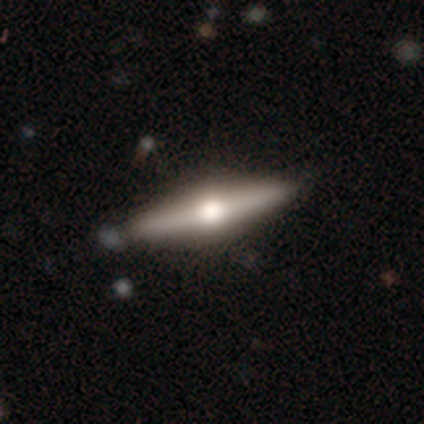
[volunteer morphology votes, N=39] featured or disk 82%, smooth 13%, star or artifact 5%. Down the decision tree: edge-on disk — yes (97%); edge-on bulge — rounded (100%); merging — none (84%).